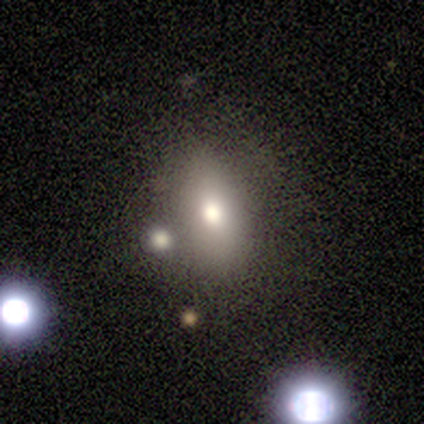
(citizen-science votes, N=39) This appears to be a smooth galaxy with no disk features (67%) that is in between round and cigar-shaped (85%). Merging: none (73%).